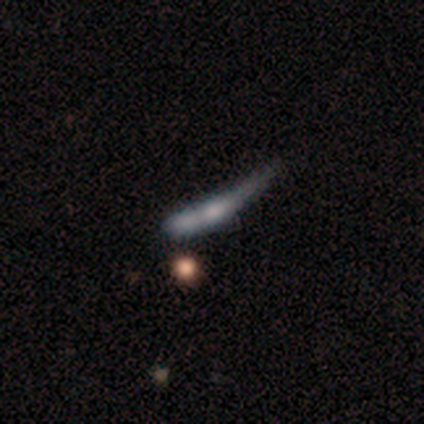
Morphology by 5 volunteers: Smooth or featured? smooth (60%)
How rounded? cigar-shaped (100%)
Merging? major disturbance (50%)